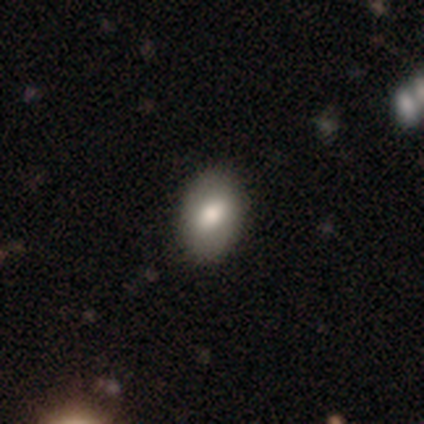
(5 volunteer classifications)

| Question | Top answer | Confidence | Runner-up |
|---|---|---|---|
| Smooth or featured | smooth | 80% | star or artifact (20%) |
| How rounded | in between | 100% | — |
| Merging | none | 75% | minor disturbance (25%) |